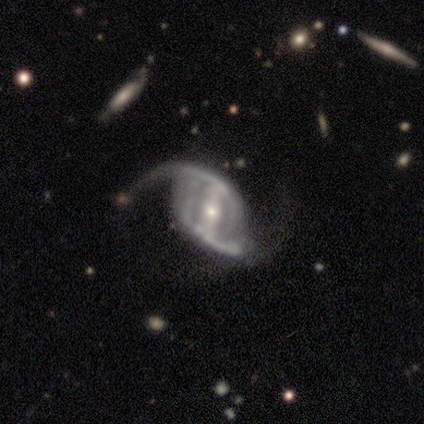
Smooth or featured: featured or disk — 95% (smooth — 3%)
Edge-on disk: no — 100%
Bar: strong — 58% (weak — 33%)
Spiral arms: yes — 97% (no — 3%)
Spiral winding: loose — 57% (medium — 40%)
Spiral arm count: 2 — 94% (can't tell — 6%)
Bulge size: small — 50% (moderate — 44%)
Merging: none — 51% (major disturbance — 27%)